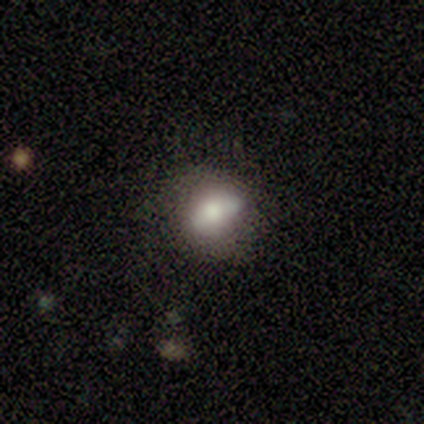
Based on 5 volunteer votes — Volunteers were most divided on "how rounded": in between: 60%, round: 40%, cigar-shaped: 0%. More confident: smooth or featured — smooth (100%); merging — none (80%).